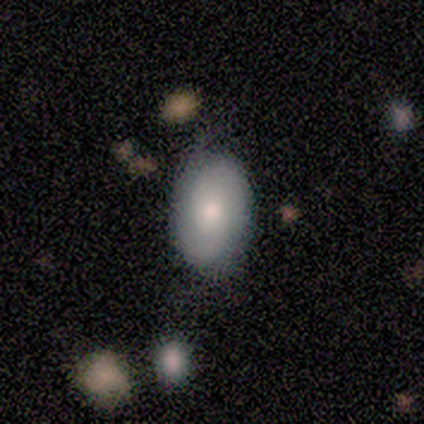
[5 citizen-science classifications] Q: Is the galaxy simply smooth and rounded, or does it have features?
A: smooth — 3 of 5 (60%).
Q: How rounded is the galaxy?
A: in between — 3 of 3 (100%).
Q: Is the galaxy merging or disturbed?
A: none — 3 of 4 (75%).